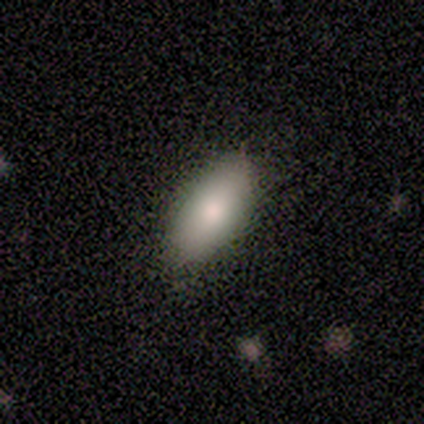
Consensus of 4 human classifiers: Smooth or featured? 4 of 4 (100%) said smooth. How rounded? 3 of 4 (75%) said in between. Merging? 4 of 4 (100%) said none.